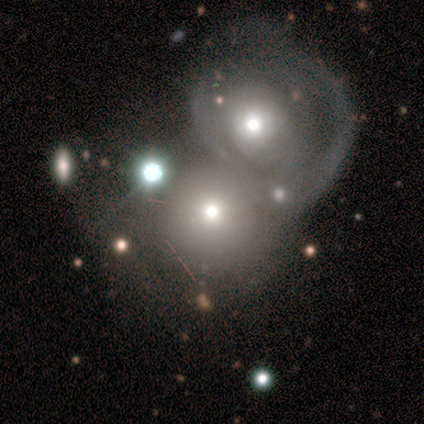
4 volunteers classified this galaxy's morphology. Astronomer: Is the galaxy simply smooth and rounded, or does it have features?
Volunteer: featured or disk — 75%.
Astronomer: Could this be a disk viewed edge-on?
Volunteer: no — 100%.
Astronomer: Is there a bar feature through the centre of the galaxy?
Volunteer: no — 100%.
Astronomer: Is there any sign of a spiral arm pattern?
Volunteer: no — 67%.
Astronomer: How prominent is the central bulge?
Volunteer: moderate — 67%.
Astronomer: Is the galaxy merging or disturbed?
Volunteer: merger — 75%.